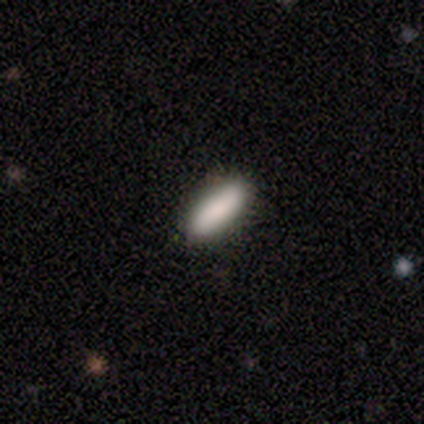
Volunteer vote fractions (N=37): Smooth or featured: smooth — 86% (featured or disk — 8%)
How rounded: in between — 53% (cigar-shaped — 47%)
Merging: none — 89% (minor disturbance — 9%)